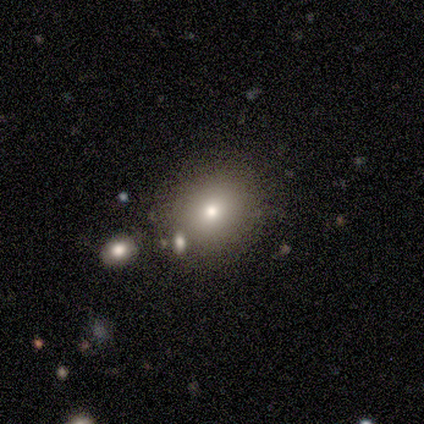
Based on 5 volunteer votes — Q: Smooth or featured?
A: smooth (80%); runner-up: star or artifact (20%)
Q: How rounded?
A: round (75%); runner-up: in between (25%)
Q: Merging?
A: minor disturbance (50%); runner-up: none (25%)